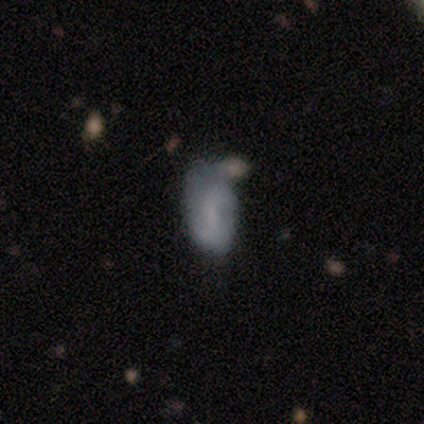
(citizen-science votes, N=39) smooth_or_featured: smooth (p=0.51) [alt: featured or disk p=0.44]
how_rounded: in between (p=0.85) [alt: round p=0.15]
merging: none (p=0.41) [alt: minor disturbance p=0.35]